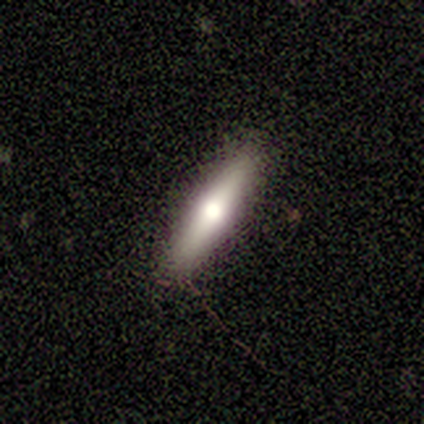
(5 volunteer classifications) Q: Smooth or featured?
A: smooth (60%); runner-up: featured or disk (40%)
Q: How rounded?
A: cigar-shaped (67%); runner-up: in between (33%)
Q: Merging?
A: none (60%); runner-up: minor disturbance (20%)